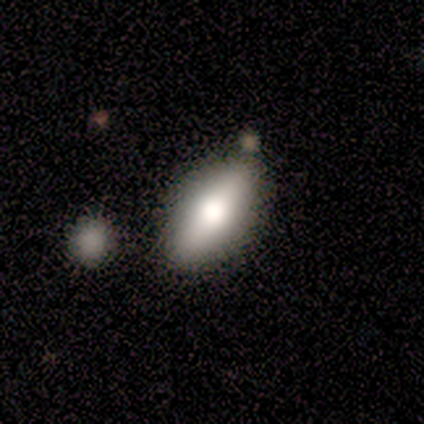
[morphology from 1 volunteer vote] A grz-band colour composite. It shows a smooth galaxy with no disk features (100%) that is in between round and cigar-shaped (100%). Merging: merger (100%).